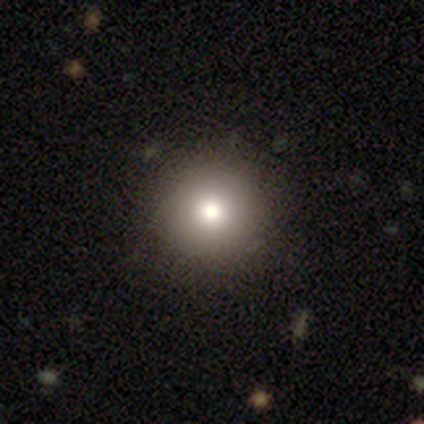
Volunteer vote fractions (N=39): This appears to be a smooth galaxy with no disk features (90%) that is round (100%). Merging: none (68%).